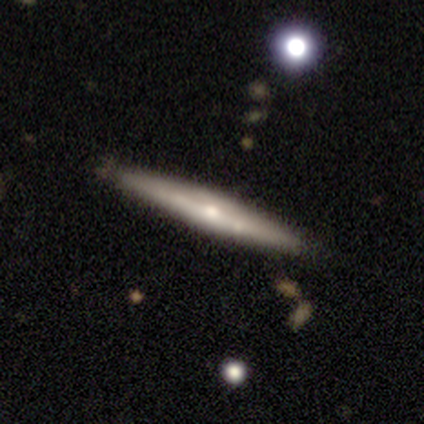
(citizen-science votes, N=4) Volunteers were most divided on "edge-on bulge": rounded: 67%, boxy: 33%, none: 0%. More confident: edge-on disk — yes (100%); smooth or featured — featured or disk (75%); merging — none (75%).